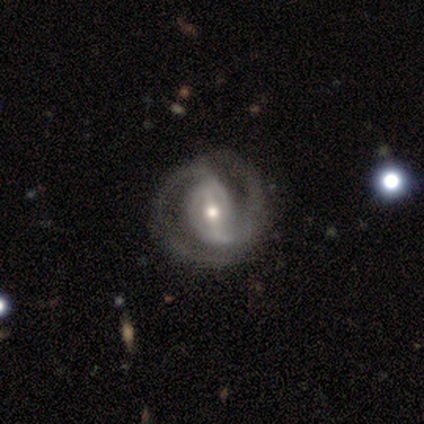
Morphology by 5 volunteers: A featured or disk galaxy (100%) with a weak bar (60%), 2 (100%) medium (75%) spiral arms (80%) and a moderate central bulge (80%).

Vote fractions:
- Smooth or featured? featured or disk: 100% / smooth: 0% / star or artifact: 0%
- Edge-on disk? no: 100% / yes: 0%
- Bar? weak: 60% / strong: 20% / no: 20%
- Spiral arms? yes: 80% / no: 20%
- Spiral winding? medium: 75% / loose: 25% / tight: 0%
- Spiral arm count? 2: 100% / 1: 0% / 3: 0% / 4: 0% / more than 4: 0% / can't tell: 0%
- Bulge size? moderate: 80% / large: 20% / dominant: 0% / small: 0% / none: 0%
- Merging? none: 60% / minor disturbance: 20% / merger: 20% / major disturbance: 0%